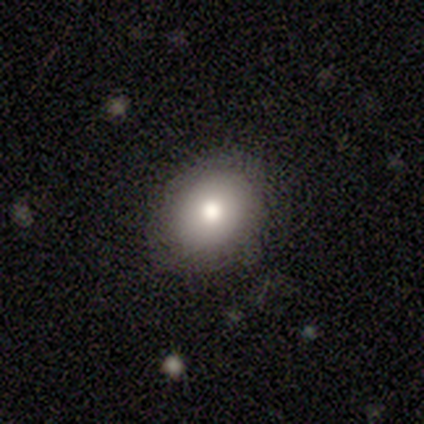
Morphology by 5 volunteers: Q: Smooth or featured?
A: smooth (80%); runner-up: featured or disk (20%)
Q: How rounded?
A: round (75%); runner-up: in between (25%)
Q: Merging?
A: none (100%)